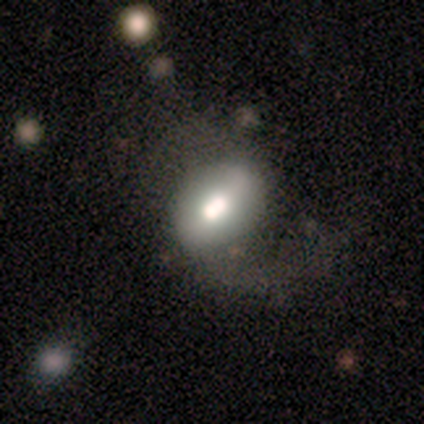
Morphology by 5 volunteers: Volunteers were most divided on "merging" (2-way tie): none: 40%, major disturbance: 40%, merger: 20%, minor disturbance: 0%. More confident: smooth or featured — smooth (80%); how rounded — in between (75%).